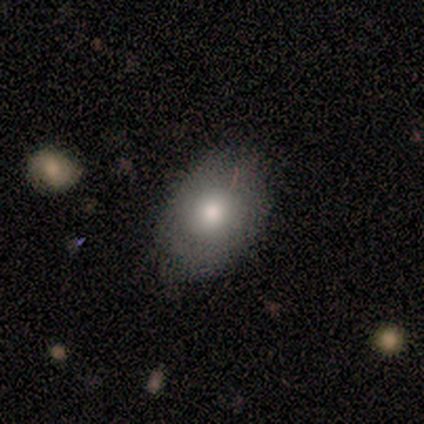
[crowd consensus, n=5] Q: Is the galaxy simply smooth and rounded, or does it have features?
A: smooth — 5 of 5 (100%).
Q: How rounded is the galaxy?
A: in between — 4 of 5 (80%).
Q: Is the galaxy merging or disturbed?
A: none — 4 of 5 (80%).